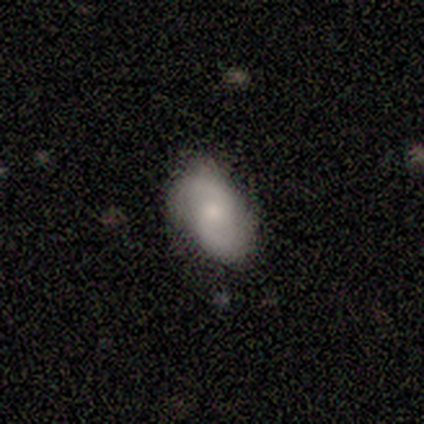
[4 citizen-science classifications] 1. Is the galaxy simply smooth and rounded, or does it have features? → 75% featured or disk, 25% smooth, 0% star or artifact.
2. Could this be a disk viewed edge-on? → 100% no, 0% yes.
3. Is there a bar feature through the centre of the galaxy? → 67% no, 33% weak, 0% strong.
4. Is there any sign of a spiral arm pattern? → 67% yes, 33% no.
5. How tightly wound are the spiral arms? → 50% medium (tied), 50% loose (tied), 0% tight.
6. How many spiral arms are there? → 100% 2, 0% 1, 0% 3, 0% 4, 0% more than 4, 0% can't tell.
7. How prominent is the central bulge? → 67% moderate, 33% none, 0% dominant, 0% large, 0% small.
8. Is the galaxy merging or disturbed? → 100% none, 0% minor disturbance, 0% major disturbance, 0% merger.